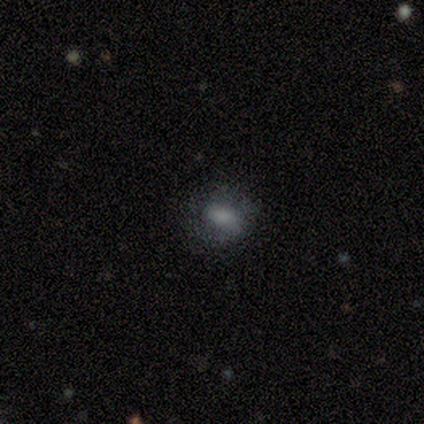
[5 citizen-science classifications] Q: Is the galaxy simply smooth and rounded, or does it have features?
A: smooth — 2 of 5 (40%, tied with star or artifact).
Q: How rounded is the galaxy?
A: in between — 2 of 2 (100%).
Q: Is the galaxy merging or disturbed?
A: none — 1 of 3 (33%, tied with minor disturbance and major disturbance).